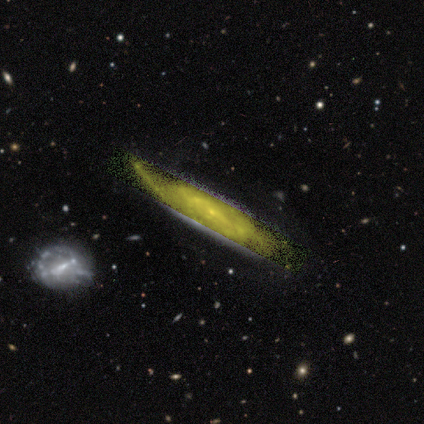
smooth_or_featured: star or artifact (p=0.60) [alt: smooth p=0.40]